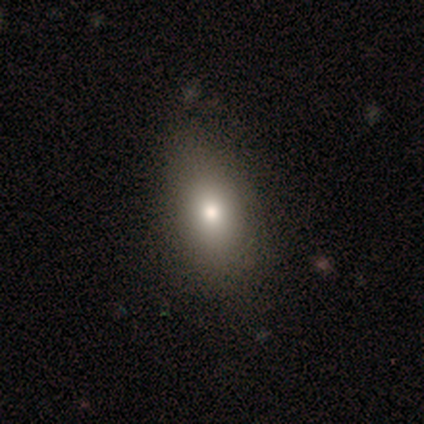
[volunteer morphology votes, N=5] smooth_or_featured: smooth (p=0.40) [tied with: star or artifact p=0.40]
how_rounded: in between (p=1.00)
merging: none (p=0.67) [alt: minor disturbance p=0.33]